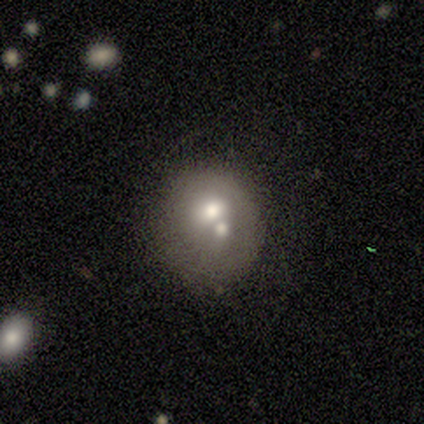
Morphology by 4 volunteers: This appears to be a featured or disk galaxy (75%) with no bar (100%), no spiral arms (100%) and a moderate central bulge (67%). Merging: merger (75%).